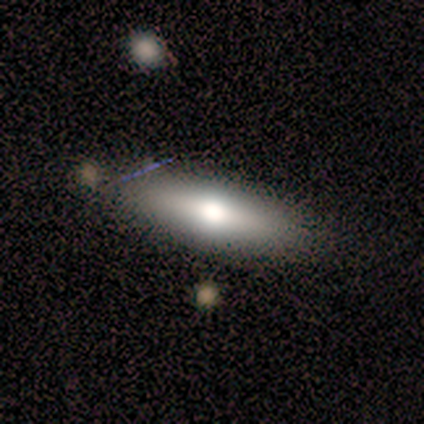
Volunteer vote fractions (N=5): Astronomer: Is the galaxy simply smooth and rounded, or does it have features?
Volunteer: featured or disk — 80%.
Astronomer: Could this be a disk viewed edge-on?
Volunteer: yes — 50%, tied with no at 50%.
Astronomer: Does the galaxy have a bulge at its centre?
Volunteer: rounded — 100%.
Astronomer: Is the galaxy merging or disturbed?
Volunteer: none — 100%.